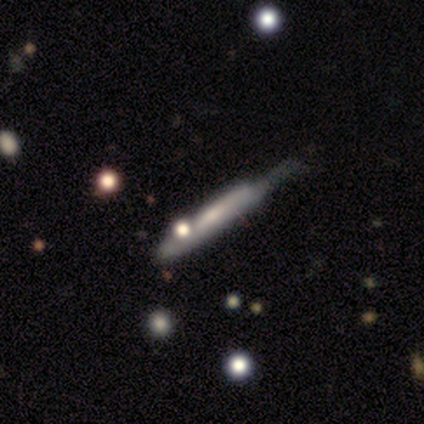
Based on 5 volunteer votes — Smooth or featured: featured or disk — 60% (smooth — 40%)
Edge-on disk: yes — 67% (no — 33%)
Edge-on bulge: none — 50% (tied with rounded — 50%)
Merging: minor disturbance — 40% (tied with major disturbance — 40%)